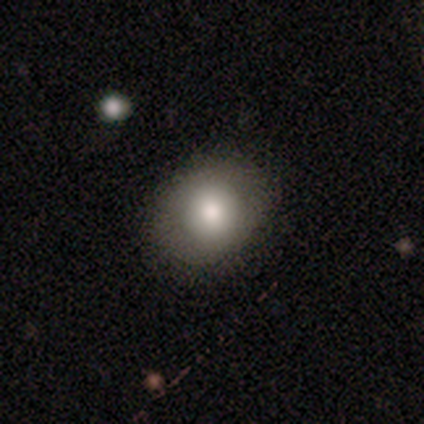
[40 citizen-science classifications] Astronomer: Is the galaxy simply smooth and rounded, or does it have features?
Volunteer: smooth — 90%.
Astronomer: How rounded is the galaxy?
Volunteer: round — 64%.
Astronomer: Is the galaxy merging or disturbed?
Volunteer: none — 89%.